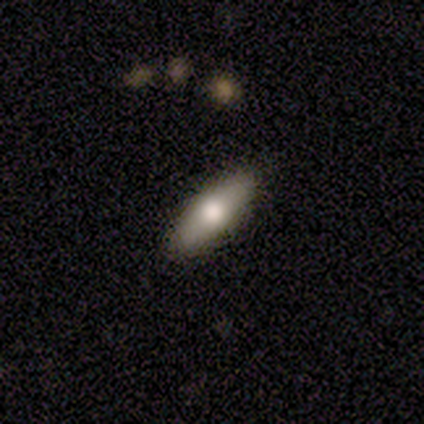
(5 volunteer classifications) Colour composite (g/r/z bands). It shows a featured or disk galaxy (60%) viewed edge-on (67%) with a rounded central bulge (100%). Merging: none (100%).